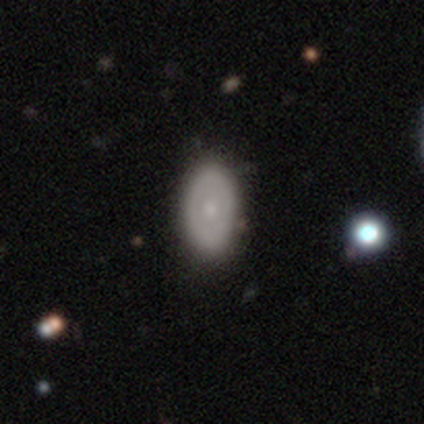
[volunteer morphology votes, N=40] Smooth or featured? 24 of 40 (60%) said smooth. How rounded? 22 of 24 (92%) said in between. Merging? 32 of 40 (80%) said none.